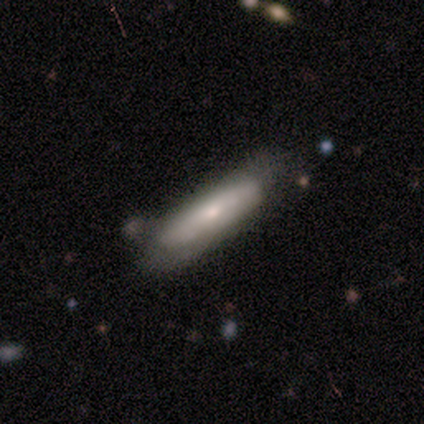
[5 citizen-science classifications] Smooth or featured?
  - smooth: 60% *
  - featured or disk: 40%
  - star or artifact: 0%
How rounded?
  - cigar-shaped: 100% *
  - round: 0%
  - in between: 0%
Merging?
  - none: 40% * (tied)
  - minor disturbance: 40% * (tied)
  - major disturbance: 20%
  - merger: 0%